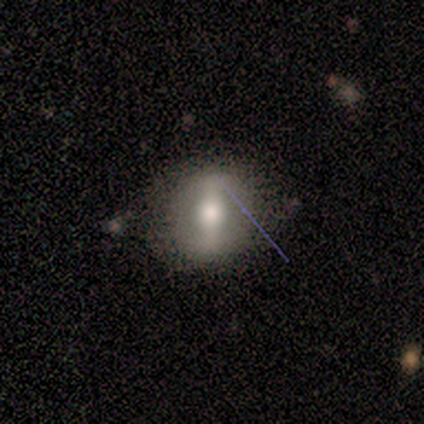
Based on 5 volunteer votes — A smooth galaxy with no disk features (60%) that is round (100%).

Vote fractions:
- Smooth or featured? smooth: 60% / featured or disk: 40% / star or artifact: 0%
- How rounded? round: 100% / in between: 0% / cigar-shaped: 0%
- Merging? none: 80% / minor disturbance: 20% / major disturbance: 0% / merger: 0%